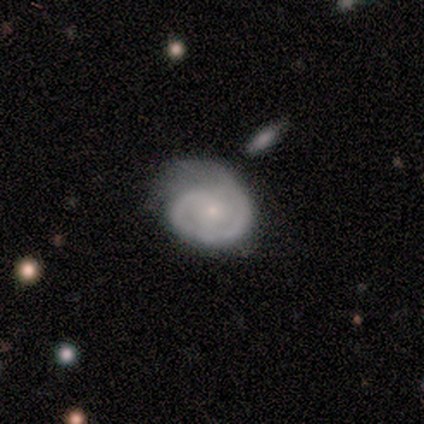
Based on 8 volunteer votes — A featured or disk galaxy (75%) with a weak bar (50%, tied with no), 1 (67%) tight (67%) spiral arms (100%) and a small central bulge (50%). Merging: none (50%).